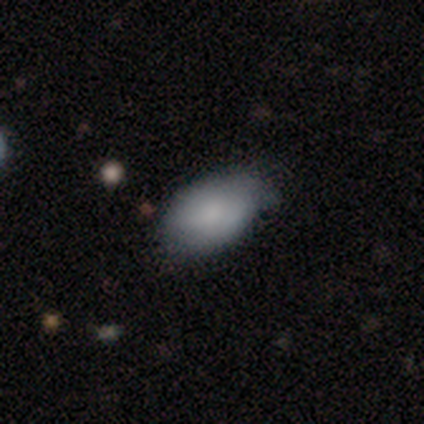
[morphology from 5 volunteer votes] This appears to be a smooth galaxy with no disk features (60%) that is in between round and cigar-shaped (100%). Merging: minor disturbance (80%).